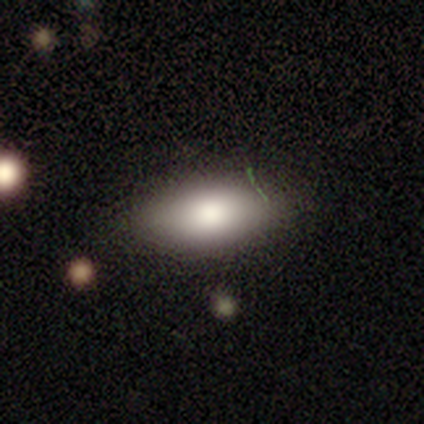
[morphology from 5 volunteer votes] A smooth galaxy with no disk features (100%) that is in between round and cigar-shaped (100%). Merging: none (100%).